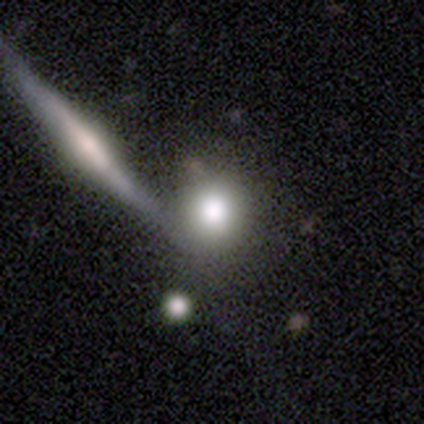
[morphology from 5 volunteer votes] Overall: smooth (100%). How rounded: round (80%). Merging: none (60%; merger 40%).